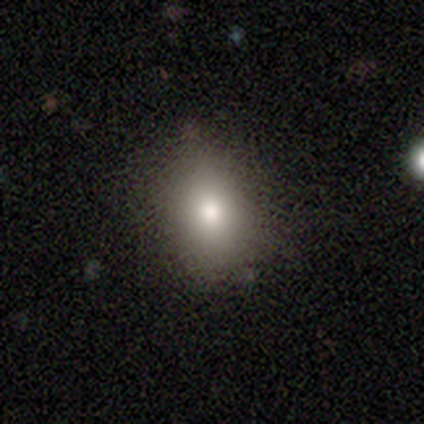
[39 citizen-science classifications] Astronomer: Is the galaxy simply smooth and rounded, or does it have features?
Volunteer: smooth — 79%.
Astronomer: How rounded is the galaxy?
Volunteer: round — 55% (runner-up: in between, 42%).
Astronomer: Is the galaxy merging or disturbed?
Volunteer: none — 88%.